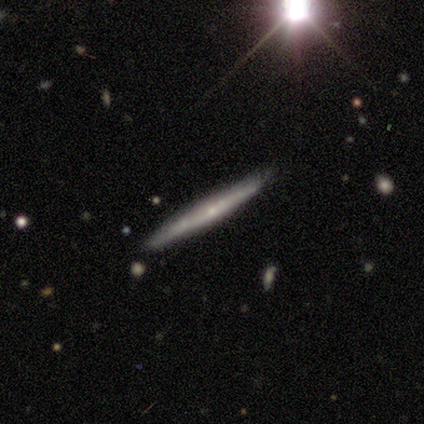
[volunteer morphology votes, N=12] Q: Smooth or featured?
A: featured or disk (50%); runner-up: smooth (42%)
Q: Edge-on disk?
A: yes (100%)
Q: Edge-on bulge?
A: none (83%); runner-up: rounded (17%)
Q: Merging?
A: none (100%)